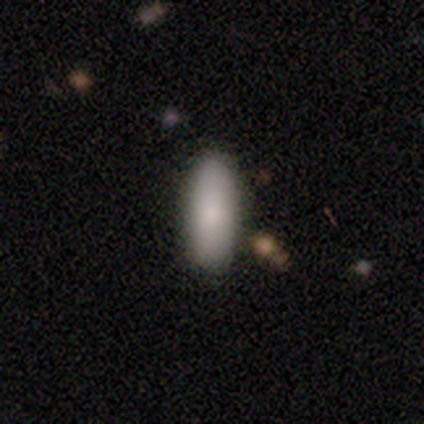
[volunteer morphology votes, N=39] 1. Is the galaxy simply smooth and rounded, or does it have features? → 79% smooth, 15% star or artifact, 5% featured or disk.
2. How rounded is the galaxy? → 77% in between, 23% cigar-shaped, 0% round.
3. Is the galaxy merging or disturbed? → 88% none, 6% minor disturbance, 6% major disturbance, 0% merger.